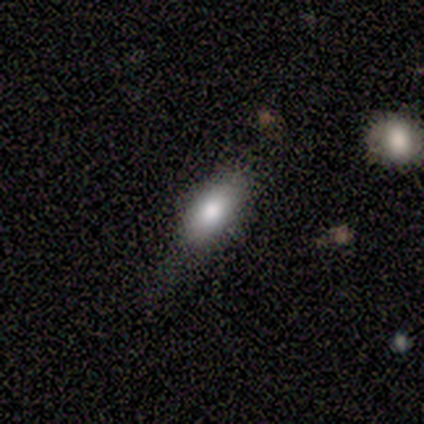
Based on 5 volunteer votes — Volunteers were most divided on "merging": none: 60%, minor disturbance: 20%, major disturbance: 20%, merger: 0%. More confident: smooth or featured — smooth (80%); how rounded — in between (75%).